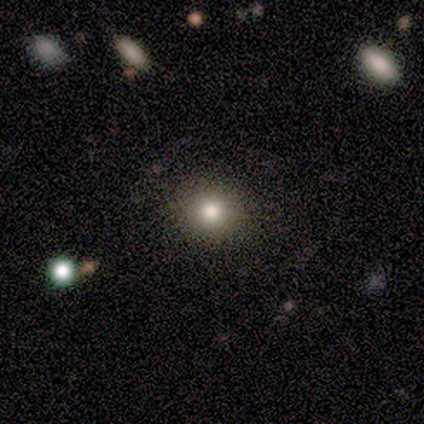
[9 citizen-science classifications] Overall: smooth (67%). How rounded: round (100%). Merging: none (88%).